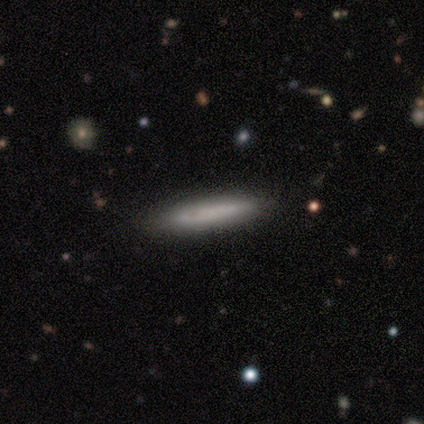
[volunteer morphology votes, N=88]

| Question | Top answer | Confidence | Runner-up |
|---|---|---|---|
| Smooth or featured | smooth | 67% | featured or disk (25%) |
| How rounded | cigar-shaped | 88% | in between (10%) |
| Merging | none | 75% | minor disturbance (22%) |